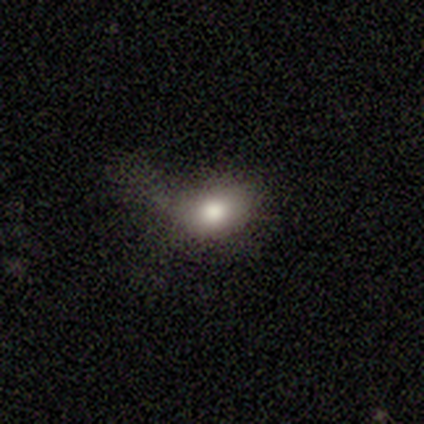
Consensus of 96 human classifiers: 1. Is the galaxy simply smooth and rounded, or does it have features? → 69% smooth, 17% star or artifact, 15% featured or disk.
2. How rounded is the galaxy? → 73% in between, 26% round, 2% cigar-shaped.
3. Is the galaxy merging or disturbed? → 38% none, 34% major disturbance, 25% minor disturbance, 4% merger.